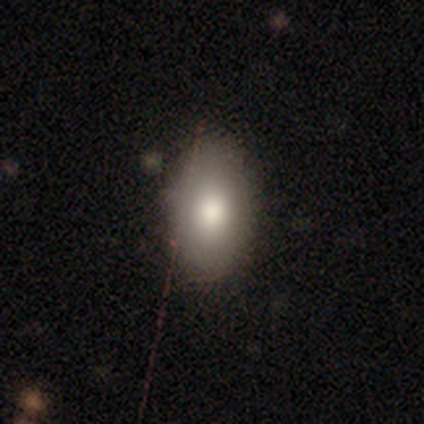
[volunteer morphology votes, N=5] Smooth or featured? smooth (100%)
How rounded? in between (100%)
Merging? none (100%)